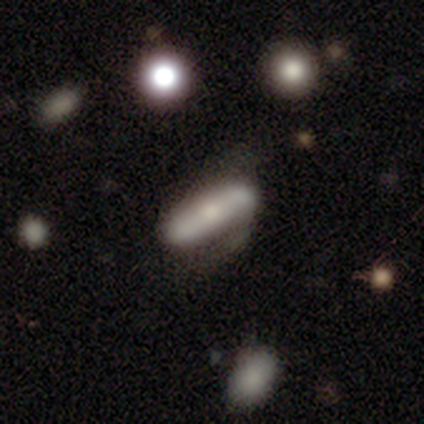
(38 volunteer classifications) smooth-or-featured: featured or disk: 66% | smooth: 32% | star or artifact: 3%
  disk-edge-on: no: 60% | yes: 40%
    bar: strong: 60% | no: 33% | weak: 7%
    has-spiral-arms: yes: 73% | no: 27%
      spiral-winding: loose: 55% | medium: 36% | tight: 9%
      spiral-arm-count: 2: 91% | can't tell: 9% | 1: 0% | 3: 0% | 4: 0% | more than 4: 0%
    bulge-size: moderate: 60% | small: 33% | large: 7% | dominant: 0% | none: 0%
  merging: none: 35% | minor disturbance: 32% | major disturbance: 24% | merger: 8%